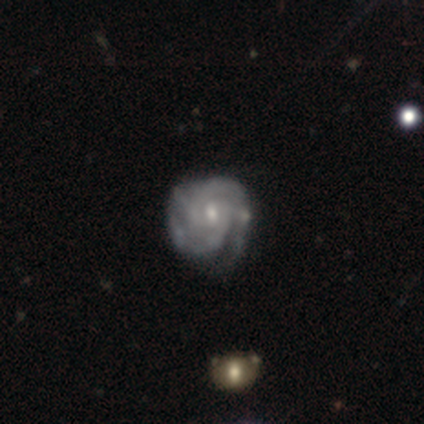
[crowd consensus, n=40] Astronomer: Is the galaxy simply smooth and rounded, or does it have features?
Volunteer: featured or disk — 92%.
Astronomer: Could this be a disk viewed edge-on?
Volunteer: no — 95%.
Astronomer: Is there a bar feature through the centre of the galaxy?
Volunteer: no — 54% (runner-up: weak, 43%).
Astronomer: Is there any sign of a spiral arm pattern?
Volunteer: yes — 94%.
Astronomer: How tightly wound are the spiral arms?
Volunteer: tight — 61%.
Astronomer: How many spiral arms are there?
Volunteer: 2 — 48% (runner-up: 3, 24%).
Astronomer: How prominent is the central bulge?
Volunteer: small — 57% (runner-up: moderate, 34%).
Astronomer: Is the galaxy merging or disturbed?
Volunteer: none — 51% (runner-up: minor disturbance, 38%).